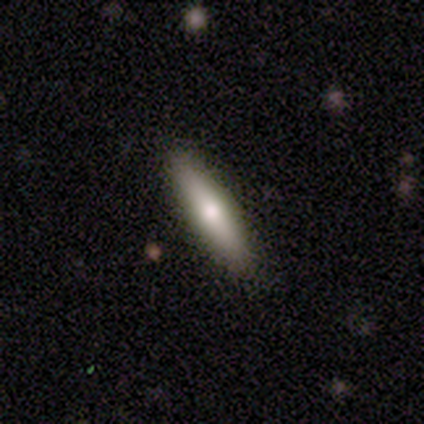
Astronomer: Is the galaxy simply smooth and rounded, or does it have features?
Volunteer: smooth — 83%.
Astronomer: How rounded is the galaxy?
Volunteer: cigar-shaped — 80%.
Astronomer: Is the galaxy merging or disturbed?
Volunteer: none — 100%.